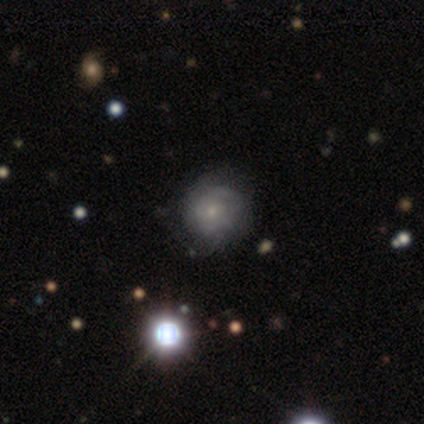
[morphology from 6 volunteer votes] Q: Smooth or featured?
A: smooth (50%); tied with: featured or disk (50%)
Q: How rounded?
A: round (100%)
Q: Merging?
A: none (67%); runner-up: minor disturbance (33%)